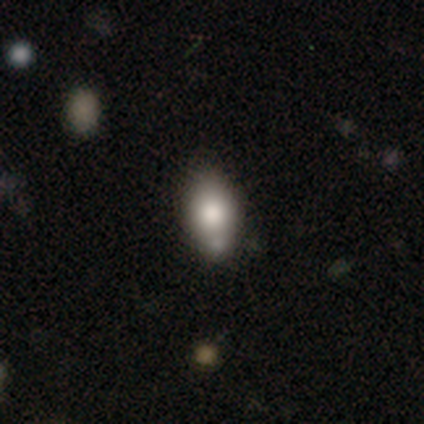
Smooth or featured: smooth — 95% (featured or disk — 2%)
How rounded: in between — 95% (round — 3%)
Merging: none — 51% (minor disturbance — 26%)